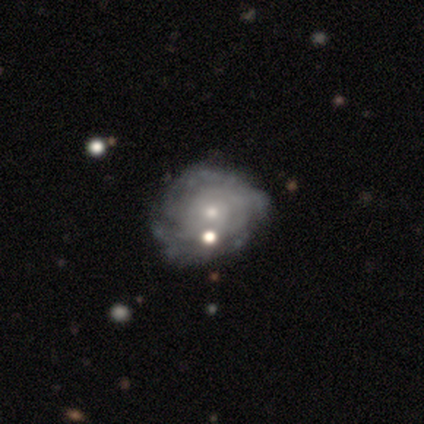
smooth_or_featured: featured or disk (p=1.00)
disk_edge_on: no (p=1.00)
bar: no (p=1.00)
has_spiral_arms: yes (p=1.00)
spiral_winding: medium (p=0.80) [alt: tight p=0.20]
spiral_arm_count: can't tell (p=0.80) [alt: more than 4 p=0.20]
bulge_size: small (p=0.60) [alt: moderate p=0.40]
merging: none (p=0.80) [alt: minor disturbance p=0.20]